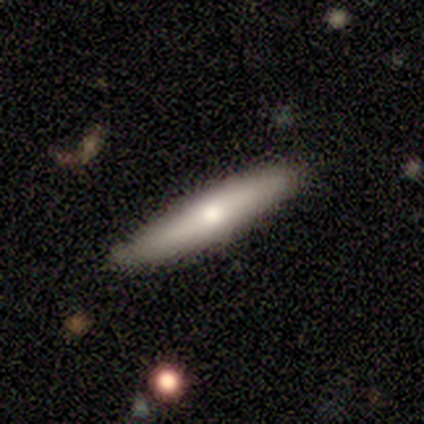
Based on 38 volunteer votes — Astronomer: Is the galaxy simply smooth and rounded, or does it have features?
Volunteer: smooth — 47%, tied with featured or disk at 47%.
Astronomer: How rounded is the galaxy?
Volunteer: cigar-shaped — 89%.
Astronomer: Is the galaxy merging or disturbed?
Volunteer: none — 83%.